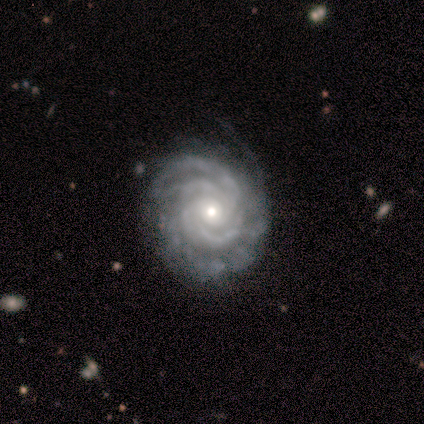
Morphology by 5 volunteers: A featured or disk galaxy (100%) with no bar (60%), 3 (40%, tied with can't tell) tight (80%) spiral arms (100%) and a moderate central bulge (60%).

Vote fractions:
- Smooth or featured? featured or disk: 100% / smooth: 0% / star or artifact: 0%
- Edge-on disk? no: 100% / yes: 0%
- Bar? no: 60% / weak: 40% / strong: 0%
- Spiral arms? yes: 100% / no: 0%
- Spiral winding? tight: 80% / medium: 20% / loose: 0%
- Spiral arm count? 3: 40% (tied) / can't tell: 40% (tied) / 4: 20% / 1: 0% / 2: 0% / more than 4: 0%
- Bulge size? moderate: 60% / small: 40% / dominant: 0% / large: 0% / none: 0%
- Merging? none: 100% / minor disturbance: 0% / major disturbance: 0% / merger: 0%